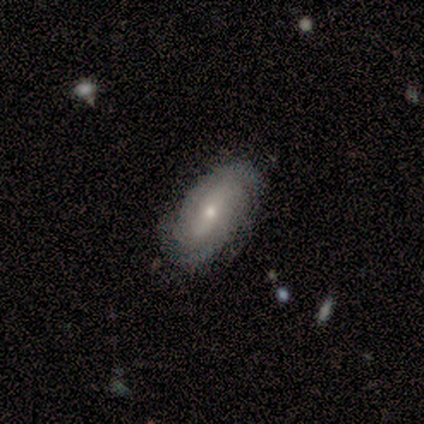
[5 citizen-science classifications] Smooth or featured?
  - featured or disk: 100% *
  - smooth: 0%
  - star or artifact: 0%
Edge-on disk?
  - no: 100% *
  - yes: 0%
Bar?
  - no: 80% *
  - weak: 20%
  - strong: 0%
Spiral arms?
  - yes: 100% *
  - no: 0%
Spiral winding?
  - tight: 80% *
  - medium: 20%
  - loose: 0%
Spiral arm count?
  - can't tell: 60% *
  - 2: 40%
  - 1: 0%
  - 3: 0%
  - 4: 0%
  - more than 4: 0%
Bulge size?
  - moderate: 80% *
  - small: 20%
  - dominant: 0%
  - large: 0%
  - none: 0%
Merging?
  - none: 60% *
  - minor disturbance: 20%
  - major disturbance: 20%
  - merger: 0%